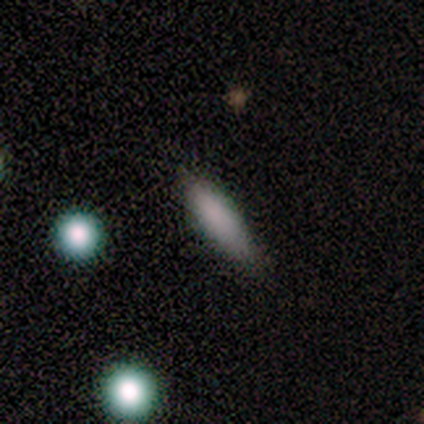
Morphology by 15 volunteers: This appears to be a smooth galaxy with no disk features (67%) that is cigar-shaped (60%). Merging: none (54%).